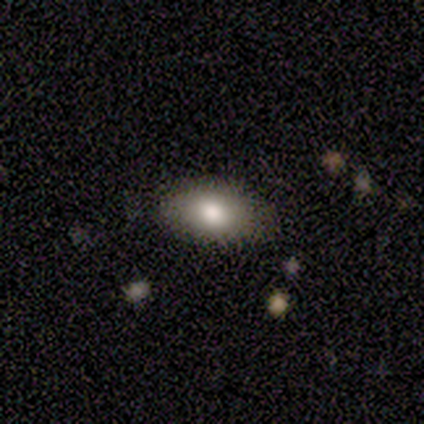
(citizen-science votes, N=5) Smooth or featured?
  - smooth: 80% *
  - star or artifact: 20%
  - featured or disk: 0%
How rounded?
  - round: 50% * (tied)
  - in between: 50% * (tied)
  - cigar-shaped: 0%
Merging?
  - none: 75% *
  - minor disturbance: 25%
  - major disturbance: 0%
  - merger: 0%